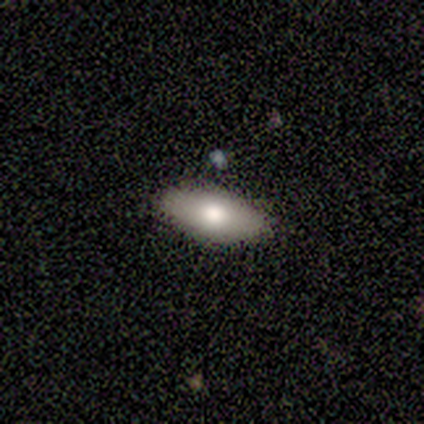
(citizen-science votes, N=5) A smooth galaxy with no disk features (80%) that is in between round and cigar-shaped (100%). Merging: none (100%).